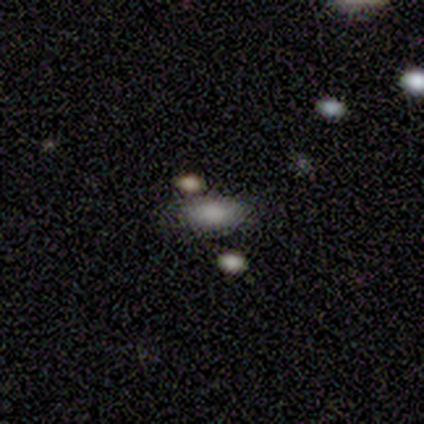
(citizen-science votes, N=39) This appears to be a smooth galaxy with no disk features (82%) that is in between round and cigar-shaped (94%). Merging: none (78%).